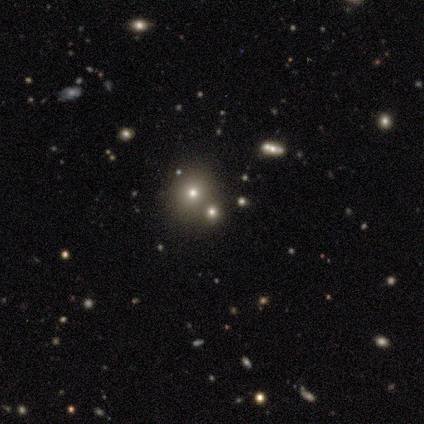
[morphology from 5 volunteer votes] smooth 60%, star or artifact 40%, featured or disk 0%. Down the decision tree: how rounded — round (100%); merging — none (100%).